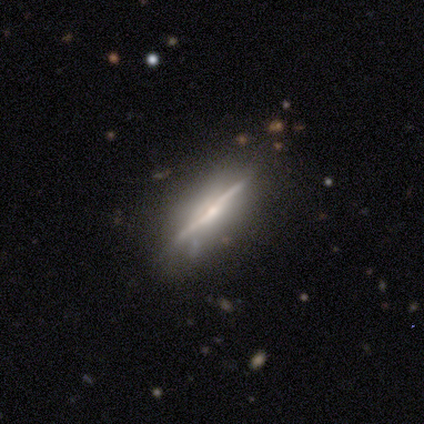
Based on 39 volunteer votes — Morphology: type=featured or disk (74%); edge-on=yes (90%); edge-on bulge=rounded (69%); merging=none (60%).